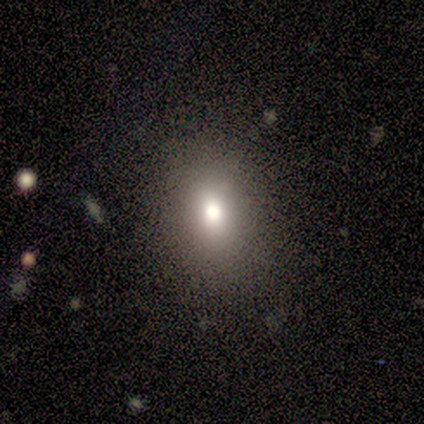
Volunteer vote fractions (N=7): Overall: smooth (71%). How rounded: in between (80%). Merging: none (100%).